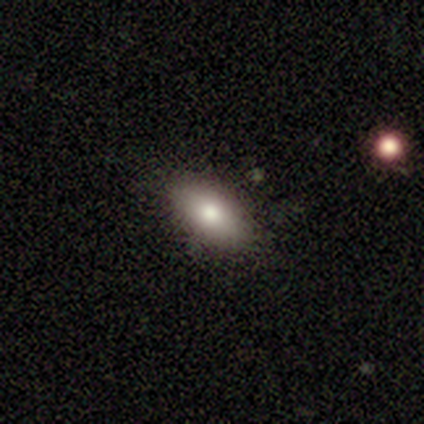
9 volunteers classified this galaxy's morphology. Smooth or featured? 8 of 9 (89%) said smooth. How rounded? 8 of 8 (100%) said in between. Merging? 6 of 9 (67%) said none.